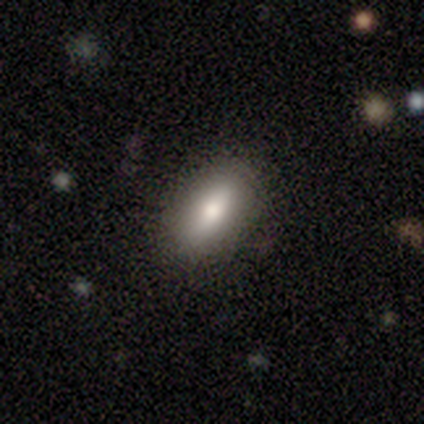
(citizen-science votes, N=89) Q: Smooth or featured?
A: smooth (79%); runner-up: featured or disk (15%)
Q: How rounded?
A: in between (80%); runner-up: cigar-shaped (19%)
Q: Merging?
A: none (83%); runner-up: minor disturbance (13%)